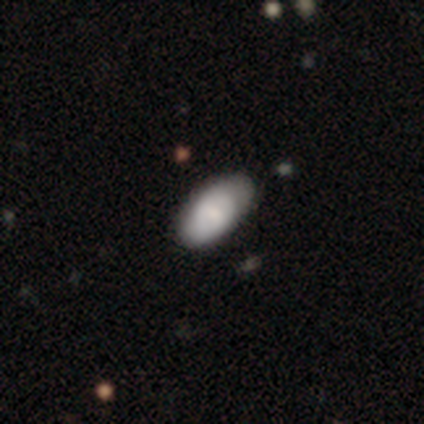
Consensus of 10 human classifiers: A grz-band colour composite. It shows a smooth galaxy with no disk features (60%) that is in between round and cigar-shaped (100%). Merging: none (70%).